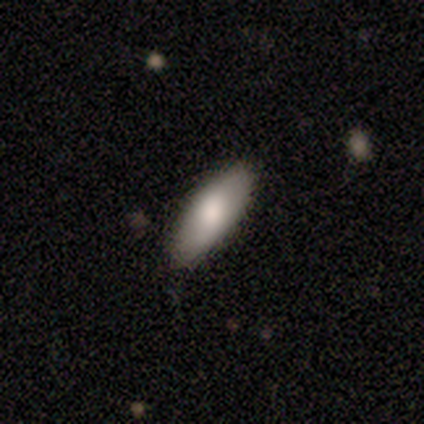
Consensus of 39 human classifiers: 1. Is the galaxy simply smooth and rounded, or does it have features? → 85% smooth, 15% featured or disk, 0% star or artifact.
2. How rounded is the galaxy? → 70% in between, 30% cigar-shaped, 0% round.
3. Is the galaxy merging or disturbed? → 87% none, 10% minor disturbance, 3% major disturbance, 0% merger.